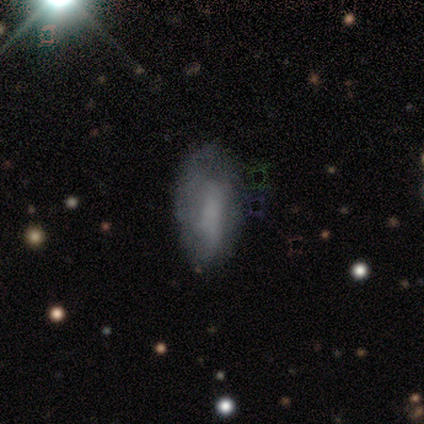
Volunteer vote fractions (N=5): smooth_or_featured: smooth (p=1.00)
how_rounded: cigar-shaped (p=0.60) [alt: in between p=0.40]
merging: none (p=0.80) [alt: minor disturbance p=0.20]